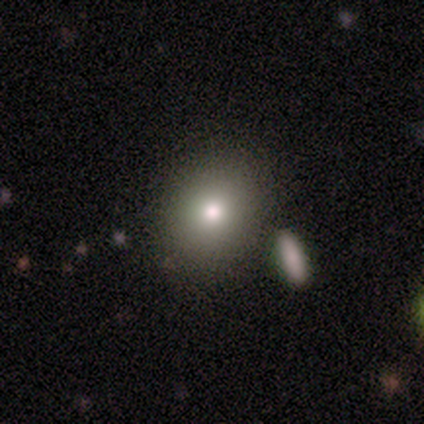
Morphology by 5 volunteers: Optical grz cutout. It shows a smooth galaxy with no disk features (80%) that is round (50%, tied with in between). Merging: none (100%).